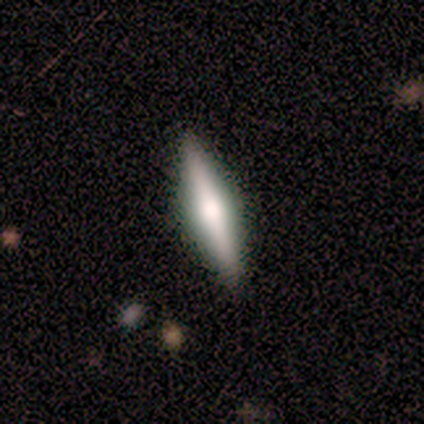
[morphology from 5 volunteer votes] A featured or disk galaxy (60%) viewed edge-on (100%) with a rounded central bulge (67%).

Vote fractions:
- Smooth or featured? featured or disk: 60% / smooth: 20% / star or artifact: 20%
- Edge-on disk? yes: 100% / no: 0%
- Edge-on bulge? rounded: 67% / none: 33% / boxy: 0%
- Merging? none: 100% / minor disturbance: 0% / major disturbance: 0% / merger: 0%